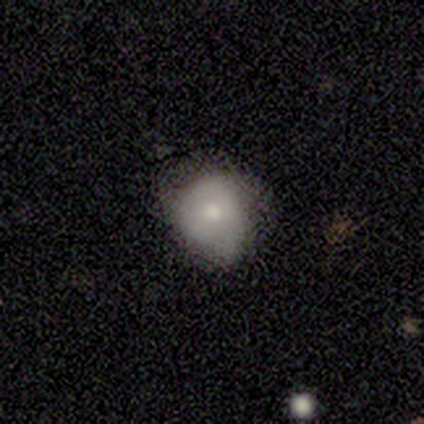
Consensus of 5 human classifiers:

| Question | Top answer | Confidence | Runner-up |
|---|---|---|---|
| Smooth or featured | featured or disk | 60% | smooth (40%) |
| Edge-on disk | no | 100% | — |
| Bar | no | 100% | — |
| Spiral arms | no | 100% | — |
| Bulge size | moderate | 67% | small (33%) |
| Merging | minor disturbance | 80% | none (20%) |